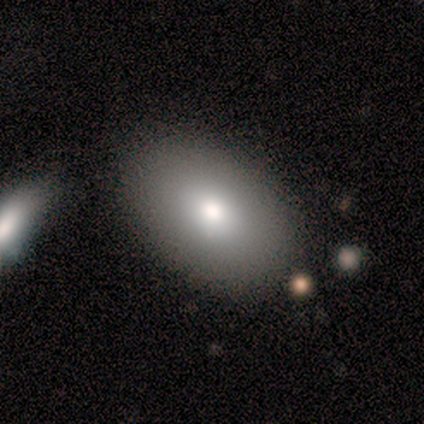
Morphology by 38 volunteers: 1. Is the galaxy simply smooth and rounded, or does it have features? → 74% smooth, 21% featured or disk, 5% star or artifact.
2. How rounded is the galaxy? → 79% in between, 21% round, 0% cigar-shaped.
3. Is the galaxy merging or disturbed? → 83% none, 8% minor disturbance, 6% major disturbance, 3% merger.